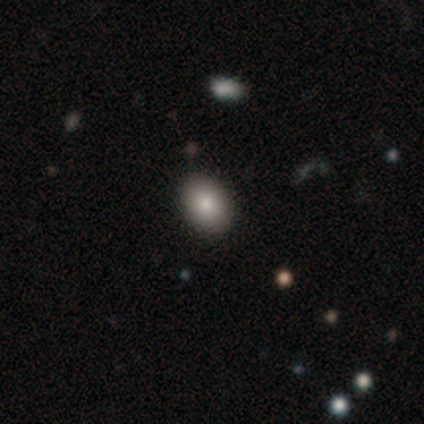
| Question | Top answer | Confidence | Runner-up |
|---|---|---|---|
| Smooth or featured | smooth | 100% | — |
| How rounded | in between | 60% | round (40%) |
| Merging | none | 100% | — |